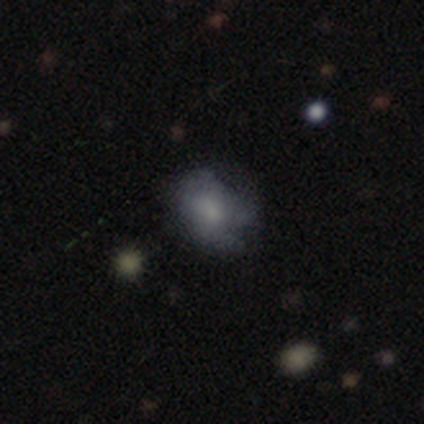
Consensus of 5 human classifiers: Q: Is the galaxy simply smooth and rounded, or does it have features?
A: smooth — 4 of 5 (80%).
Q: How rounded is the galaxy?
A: round — 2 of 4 (50%, tied with in between).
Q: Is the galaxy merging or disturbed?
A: minor disturbance — 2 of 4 (50%).